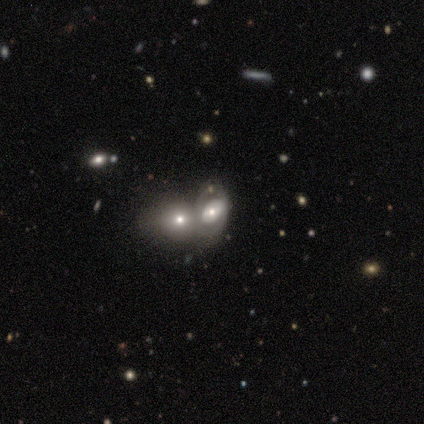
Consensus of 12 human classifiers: smooth_or_featured: smooth (p=0.50) [alt: featured or disk p=0.42]
how_rounded: in between (p=0.67) [alt: round p=0.33]
merging: merger (p=0.73) [alt: none p=0.27]